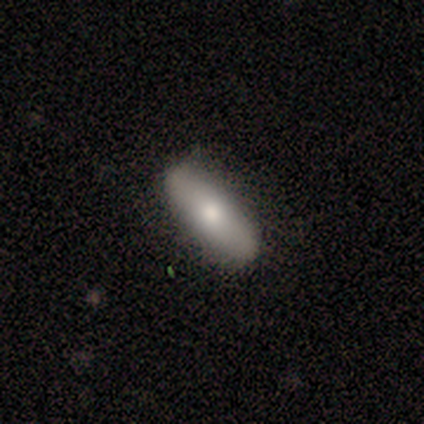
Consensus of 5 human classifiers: Smooth or featured? 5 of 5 (100%) said smooth. How rounded? 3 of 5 (60%) said in between. Merging? 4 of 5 (80%) said none.